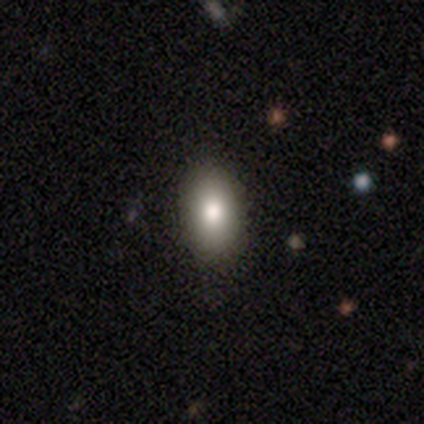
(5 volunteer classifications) This appears to be a smooth galaxy with no disk features (40%, tied with star or artifact) that is in between round and cigar-shaped (100%). Merging: none (67%).